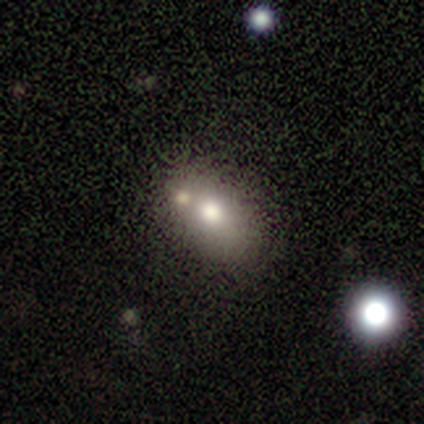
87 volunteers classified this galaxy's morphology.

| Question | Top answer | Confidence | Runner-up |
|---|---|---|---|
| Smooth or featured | smooth | 72% | featured or disk (17%) |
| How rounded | in between | 79% | round (21%) |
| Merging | none | 51% | merger (24%) |